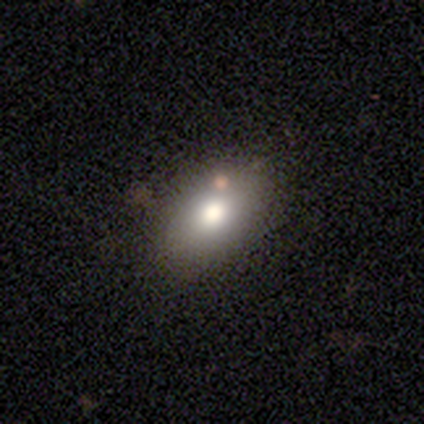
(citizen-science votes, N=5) This appears to be a smooth galaxy with no disk features (80%) that is in between round and cigar-shaped (100%). Merging: none (75%).